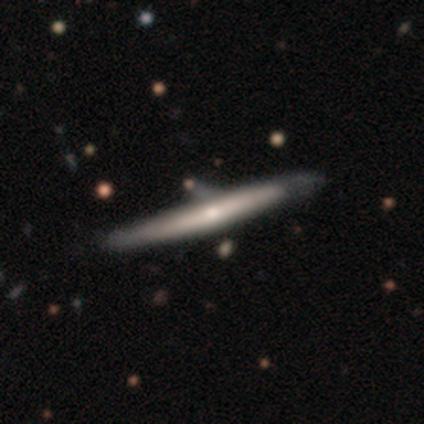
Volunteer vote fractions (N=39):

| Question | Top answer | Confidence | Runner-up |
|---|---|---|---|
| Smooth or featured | featured or disk | 56% | smooth (38%) |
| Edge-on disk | yes | 95% | no (5%) |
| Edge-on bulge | rounded | 57% | none (38%) |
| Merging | none | 35% | minor disturbance (24%) |